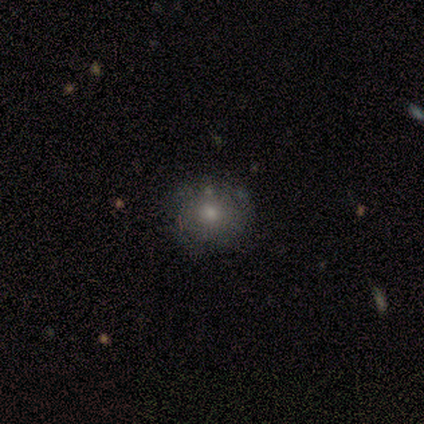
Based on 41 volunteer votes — A smooth galaxy with no disk features (73%) that is round (93%).

Vote fractions:
- Smooth or featured? smooth: 73% / featured or disk: 22% / star or artifact: 5%
- How rounded? round: 93% / in between: 7% / cigar-shaped: 0%
- Merging? none: 51% / major disturbance: 5% / minor disturbance: 3% / merger: 3%